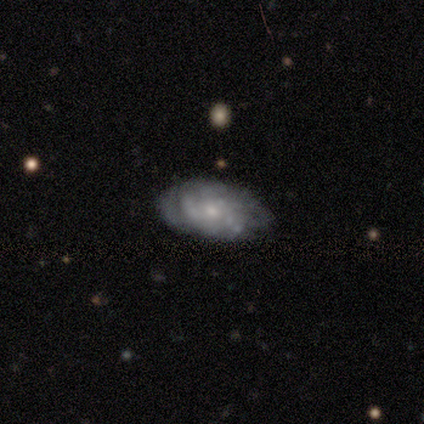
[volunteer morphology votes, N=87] This appears to be a featured or disk galaxy (68%) with no bar (85%), tight (66%) spiral arms (69%) and a small central bulge (69%). Merging: none (61%).